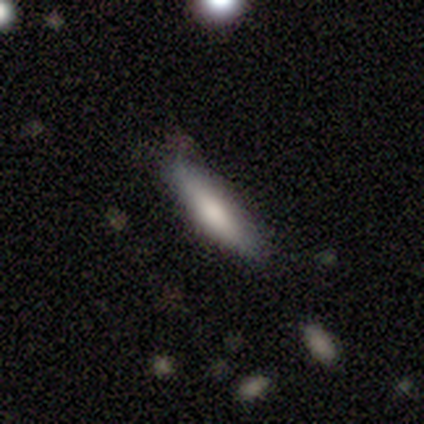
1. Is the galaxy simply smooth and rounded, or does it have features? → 75% smooth, 25% featured or disk, 0% star or artifact.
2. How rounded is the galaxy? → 67% cigar-shaped, 33% in between, 0% round.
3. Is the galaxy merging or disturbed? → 50% minor disturbance, 25% none, 25% merger, 0% major disturbance.